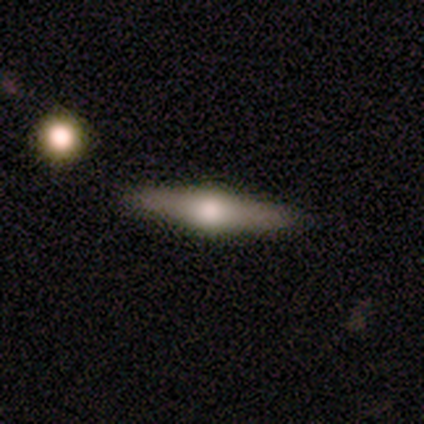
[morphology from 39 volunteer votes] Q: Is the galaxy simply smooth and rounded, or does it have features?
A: featured or disk — 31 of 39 (79%).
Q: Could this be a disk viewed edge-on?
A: yes — 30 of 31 (97%).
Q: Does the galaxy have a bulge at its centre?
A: rounded — 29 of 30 (97%).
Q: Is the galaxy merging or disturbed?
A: none — 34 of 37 (92%).